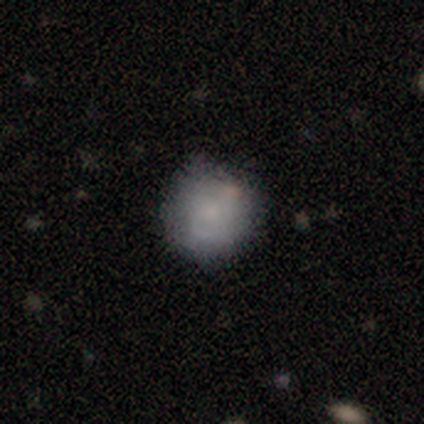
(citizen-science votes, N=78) Smooth or featured? 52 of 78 (67%) said smooth. How rounded? 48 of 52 (92%) said round. Merging? 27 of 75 (36%) said none.